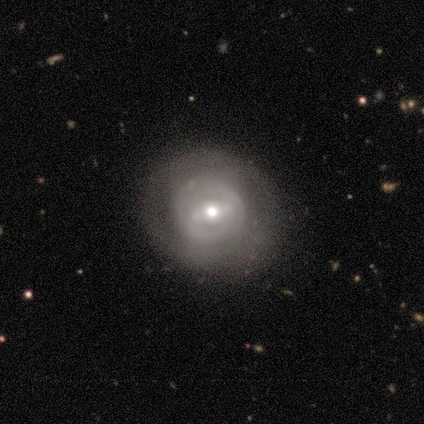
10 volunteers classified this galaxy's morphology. featured or disk 80%, smooth 10%, star or artifact 10%. Down the decision tree: edge-on disk — no (100%); bar — weak (50%); spiral arms — yes (88%); spiral arm count — 2 (57%); spiral winding — tight (86%); bulge size — moderate (50%); merging — none (78%).